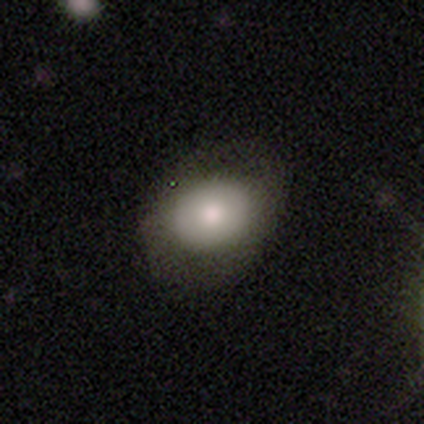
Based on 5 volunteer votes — Overall: smooth (80%). How rounded: in between (75%). Merging: none (50%, tied with minor disturbance).